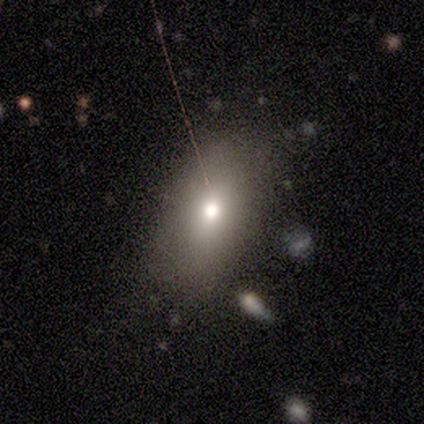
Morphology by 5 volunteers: smooth-or-featured: smooth: 60% | featured or disk: 20% | star or artifact: 20%
  how-rounded: in between: 100% | round: 0% | cigar-shaped: 0%
  merging: none: 50% (tied) | minor disturbance: 50% (tied) | major disturbance: 0% | merger: 0%